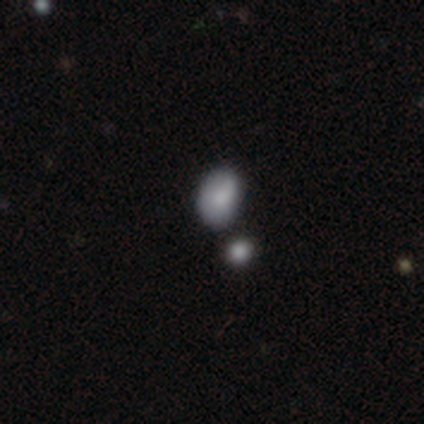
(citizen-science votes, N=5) Overall: smooth (60%; star or artifact 40%). How rounded: in between (67%; round 33%). Merging: none (67%; minor disturbance 33%).